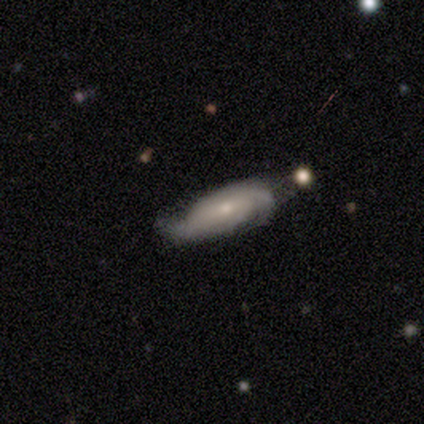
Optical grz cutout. It shows a featured or disk galaxy (71%) with a weak bar (80%), 2 (80%) medium (60%) spiral arms (100%) and a moderate central bulge (40%, tied with small). Merging: none (67%).